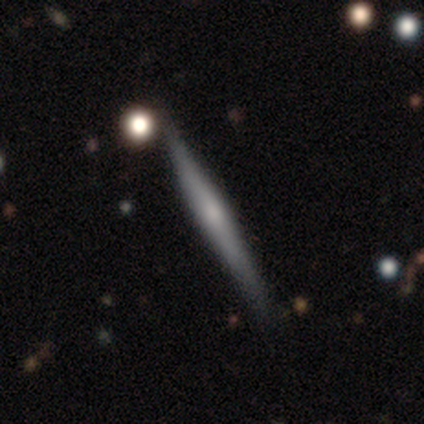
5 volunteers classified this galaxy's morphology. Overall: featured or disk (80%). Edge-on disk: yes (100%). Edge-on bulge: rounded (75%). Merging: none (100%).